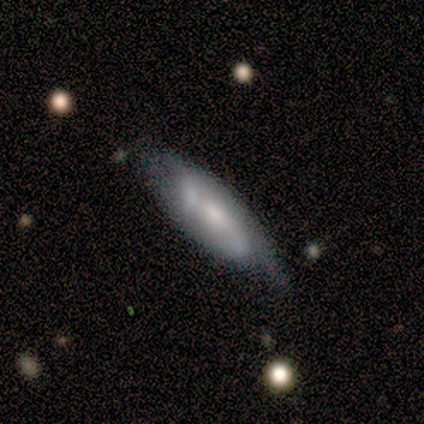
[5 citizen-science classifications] smooth_or_featured: featured or disk (p=1.00)
disk_edge_on: no (p=1.00)
bar: no (p=0.60) [alt: strong p=0.20]
has_spiral_arms: yes (p=1.00)
spiral_winding: tight (p=0.60) [alt: medium p=0.20]
spiral_arm_count: can't tell (p=0.60) [alt: 2 p=0.40]
bulge_size: small (p=0.60) [alt: large p=0.20]
merging: none (p=0.60) [alt: minor disturbance p=0.40]